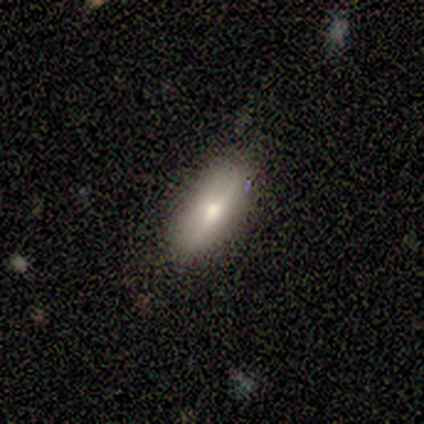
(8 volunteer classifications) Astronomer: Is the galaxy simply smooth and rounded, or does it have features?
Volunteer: smooth — 75%.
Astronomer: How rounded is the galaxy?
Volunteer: in between — 67%.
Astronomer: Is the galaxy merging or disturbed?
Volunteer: none — 86%.